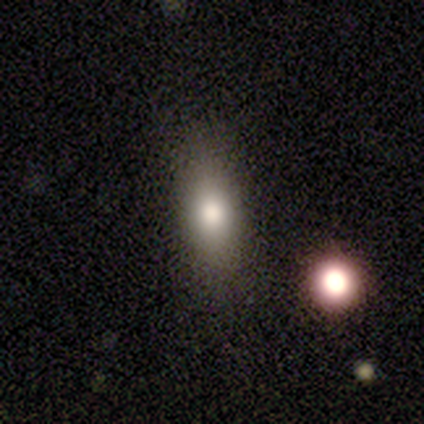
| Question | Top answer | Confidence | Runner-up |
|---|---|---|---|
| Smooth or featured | smooth | 80% | featured or disk (20%) |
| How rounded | in between | 100% | — |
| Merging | none | 80% | minor disturbance (20%) |